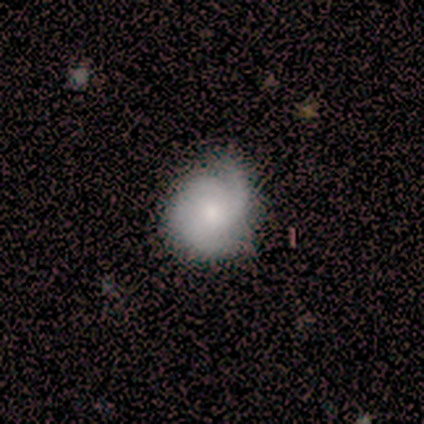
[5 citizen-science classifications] A smooth galaxy with no disk features (60%) that is round (67%).

Vote fractions:
- Smooth or featured? smooth: 60% / featured or disk: 40% / star or artifact: 0%
- How rounded? round: 67% / in between: 33% / cigar-shaped: 0%
- Merging? none: 100% / minor disturbance: 0% / major disturbance: 0% / merger: 0%